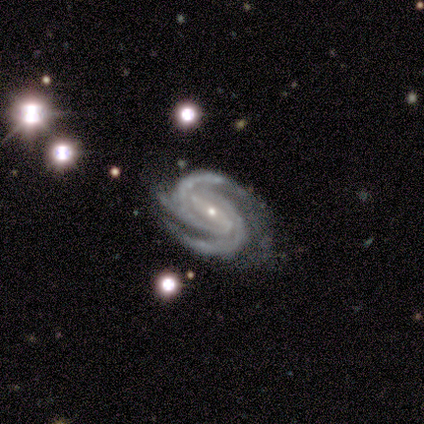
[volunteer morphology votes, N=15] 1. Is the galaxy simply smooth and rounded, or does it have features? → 93% featured or disk, 7% star or artifact, 0% smooth.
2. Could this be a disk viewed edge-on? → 100% no, 0% yes.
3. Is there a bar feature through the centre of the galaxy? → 57% strong, 29% weak, 14% no.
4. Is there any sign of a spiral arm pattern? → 100% yes, 0% no.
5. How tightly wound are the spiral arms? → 57% tight, 29% medium, 14% loose.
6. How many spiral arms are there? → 50% 2, 43% 3, 7% 4, 0% 1, 0% more than 4, 0% can't tell.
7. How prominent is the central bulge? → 93% small, 7% moderate, 0% dominant, 0% large, 0% none.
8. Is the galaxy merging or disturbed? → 57% none, 43% minor disturbance, 0% major disturbance, 0% merger.